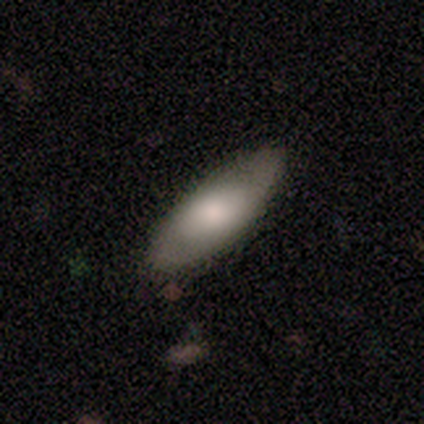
Overall: smooth (57%; featured or disk 41%). How rounded: in between (67%; cigar-shaped 29%). Merging: none (92%).